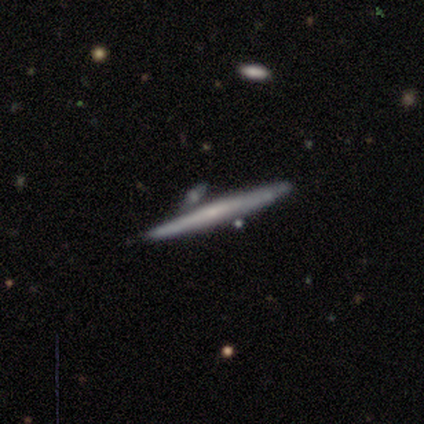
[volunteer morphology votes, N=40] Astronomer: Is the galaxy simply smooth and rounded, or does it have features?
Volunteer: featured or disk — 52% (runner-up: smooth, 42%).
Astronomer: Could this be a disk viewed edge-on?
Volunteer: yes — 95%.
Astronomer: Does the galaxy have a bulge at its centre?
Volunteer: none — 45%, tied with rounded at 45%.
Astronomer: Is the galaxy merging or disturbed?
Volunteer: none — 76%.